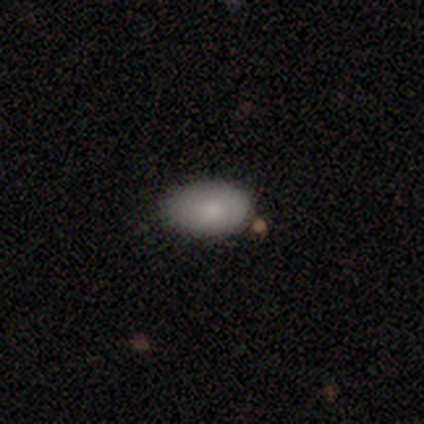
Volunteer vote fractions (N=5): This appears to be a smooth galaxy with no disk features (100%) that is in between round and cigar-shaped (80%). Merging: none (80%).